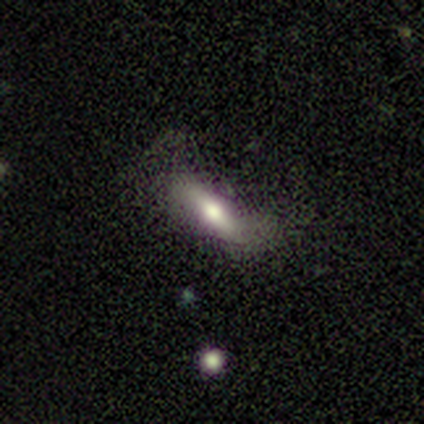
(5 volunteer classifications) This is clearly a smooth galaxy (100%). How rounded: likely cigar-shaped (60%). Merging: likely none (60%).